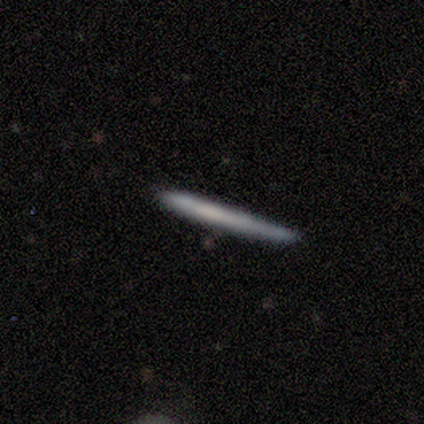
This is likely a smooth galaxy (63%). How rounded: clearly cigar-shaped (100%). Merging: likely none (79%).